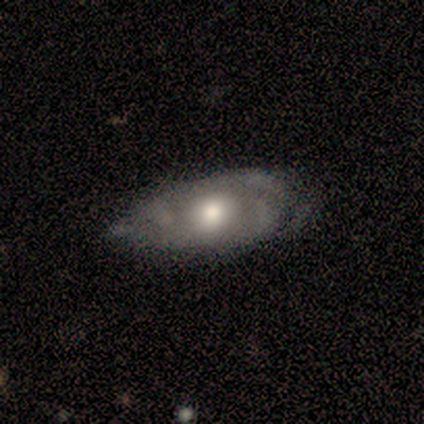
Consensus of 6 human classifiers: A smooth galaxy with no disk features (50%, tied with featured or disk) that is in between round and cigar-shaped (100%).

Vote fractions:
- Smooth or featured? smooth: 50% (tied) / featured or disk: 50% (tied) / star or artifact: 0%
- How rounded? in between: 100% / round: 0% / cigar-shaped: 0%
- Merging? minor disturbance: 67% / none: 17% / major disturbance: 17% / merger: 0%